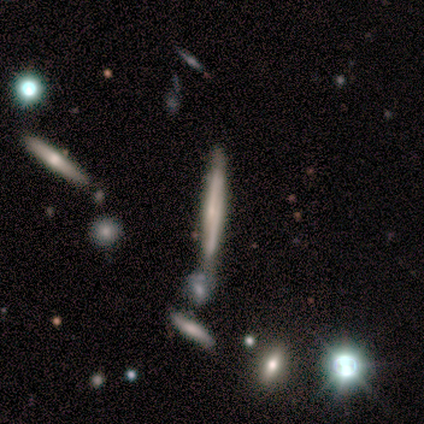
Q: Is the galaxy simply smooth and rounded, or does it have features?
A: smooth — 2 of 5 (40%, tied with featured or disk).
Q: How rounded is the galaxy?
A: cigar-shaped — 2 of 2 (100%).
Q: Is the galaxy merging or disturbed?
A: none — 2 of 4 (50%).